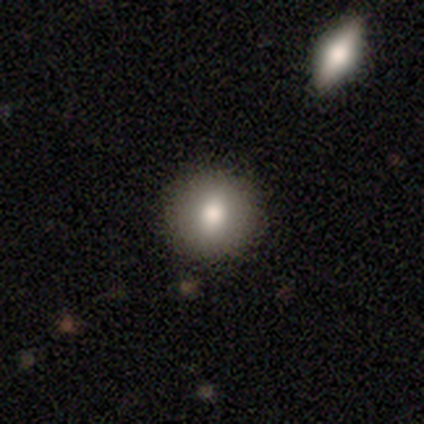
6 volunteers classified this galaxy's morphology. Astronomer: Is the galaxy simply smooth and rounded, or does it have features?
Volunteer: smooth — 50% (runner-up: featured or disk, 33%).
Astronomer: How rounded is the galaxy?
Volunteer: round — 100%.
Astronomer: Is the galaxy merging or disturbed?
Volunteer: none — 100%.